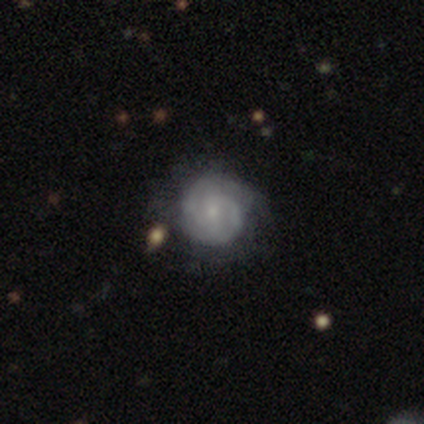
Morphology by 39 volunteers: Smooth or featured? featured or disk (77%)
Edge-on disk? no (90%)
Bar? no (70%)
Spiral arms? yes (93%)
Spiral winding? tight (68%)
Spiral arm count? 2 (56%)
Bulge size? small (74%)
Merging? none (57%)